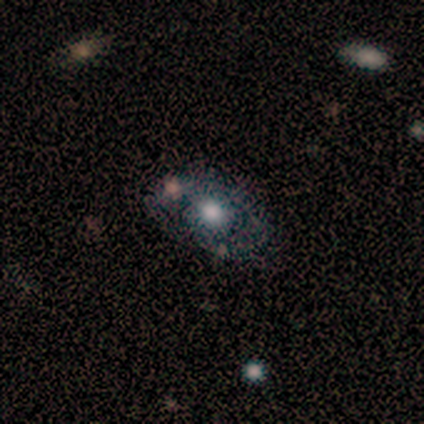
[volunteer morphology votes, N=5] smooth-or-featured: featured or disk: 60% | smooth: 40% | star or artifact: 0%
  disk-edge-on: no: 100% | yes: 0%
    bar: no: 100% | strong: 0% | weak: 0%
    has-spiral-arms: no: 67% | yes: 33%
    bulge-size: moderate: 67% | large: 33% | dominant: 0% | small: 0% | none: 0%
  merging: none: 60% | minor disturbance: 20% | merger: 20% | major disturbance: 0%